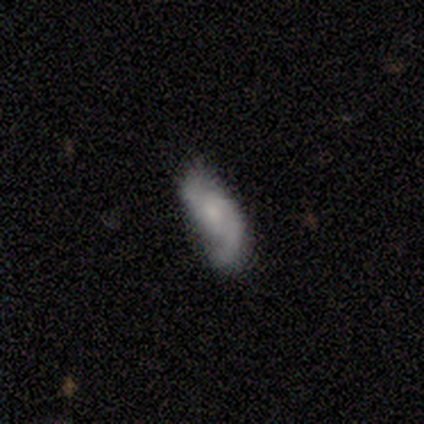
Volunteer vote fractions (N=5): Morphology: type=featured or disk (80%); edge-on=no (100%); bar=strong (50%, tied with no); spiral arms=yes (75%); winding=tight (33%, tied with medium and loose); arm count=2 (67%); bulge=none (50%); merging=none (80%).